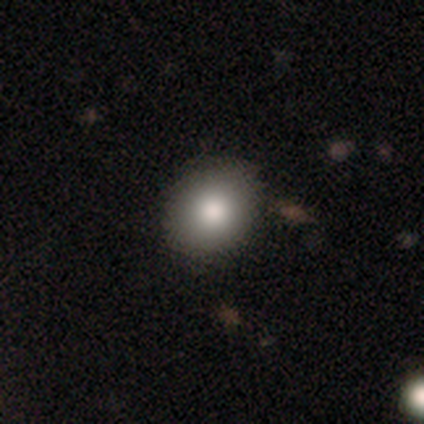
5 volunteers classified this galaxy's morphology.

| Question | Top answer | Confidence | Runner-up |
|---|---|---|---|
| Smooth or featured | smooth | 60% | featured or disk (20%) |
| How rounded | in between | 67% | round (33%) |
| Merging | none | 100% | — |